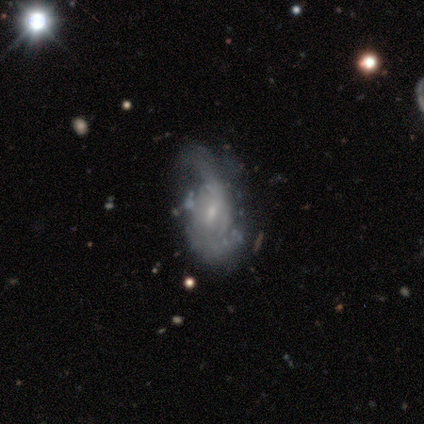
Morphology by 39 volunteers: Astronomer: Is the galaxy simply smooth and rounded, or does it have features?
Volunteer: featured or disk — 82%.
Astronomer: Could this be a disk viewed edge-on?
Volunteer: no — 100%.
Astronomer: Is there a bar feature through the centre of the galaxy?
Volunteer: weak — 53% (runner-up: no, 34%).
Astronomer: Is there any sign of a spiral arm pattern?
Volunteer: yes — 78%.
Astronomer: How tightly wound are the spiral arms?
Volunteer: medium — 40%, tied with loose at 40%.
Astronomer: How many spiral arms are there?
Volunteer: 2 — 64%.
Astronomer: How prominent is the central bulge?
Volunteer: small — 81%.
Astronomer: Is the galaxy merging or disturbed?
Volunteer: none — 32%, tied with major disturbance at 32%.